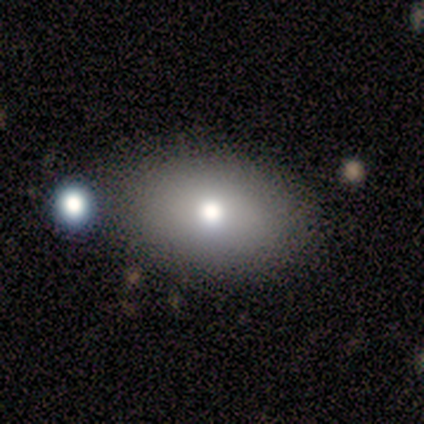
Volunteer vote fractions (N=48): Smooth or featured? smooth (85%)
How rounded? in between (90%)
Merging? none (80%)